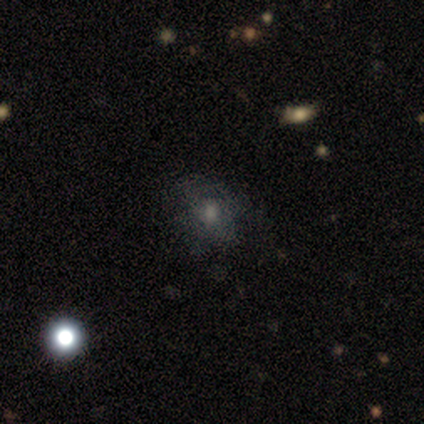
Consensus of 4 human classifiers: Smooth or featured? smooth (50%, tied with featured or disk)
How rounded? round (100%)
Merging? none (50%)